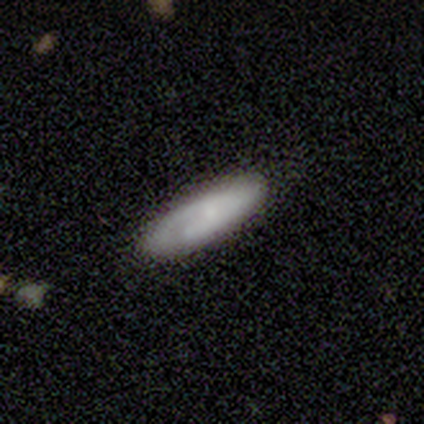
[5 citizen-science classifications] This appears to be a smooth galaxy with no disk features (60%) that is cigar-shaped (67%). Merging: none (100%).